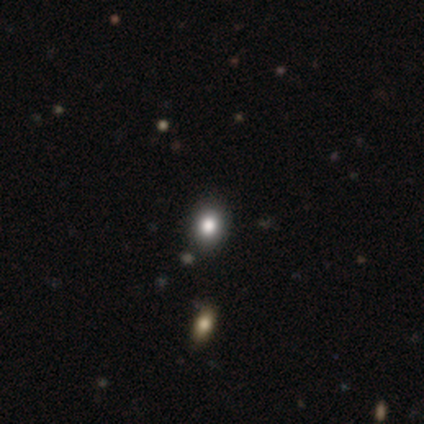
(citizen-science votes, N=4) A smooth galaxy with no disk features (50%) that is in between round and cigar-shaped (100%). Merging: none (100%).